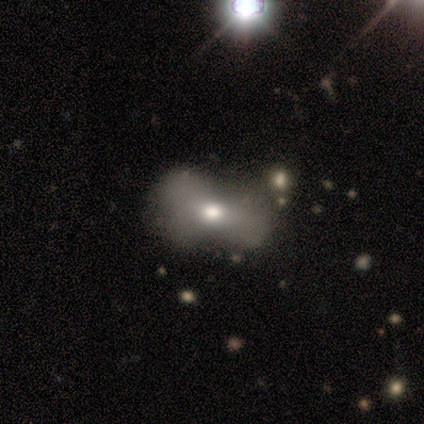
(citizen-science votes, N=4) A smooth galaxy with no disk features (50%, tied with featured or disk) that is in between round and cigar-shaped (100%).

Vote fractions:
- Smooth or featured? smooth: 50% (tied) / featured or disk: 50% (tied) / star or artifact: 0%
- How rounded? in between: 100% / round: 0% / cigar-shaped: 0%
- Merging? none: 75% / major disturbance: 25% / minor disturbance: 0% / merger: 0%